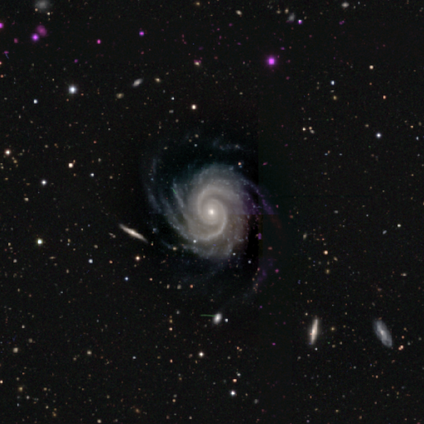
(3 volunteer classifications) Q: Smooth or featured?
A: featured or disk (67%); runner-up: star or artifact (33%)
Q: Edge-on disk?
A: no (100%)
Q: Bar?
A: no (100%)
Q: Spiral arms?
A: yes (100%)
Q: Spiral winding?
A: tight (50%); tied with: medium (50%)
Q: Spiral arm count?
A: 2 (50%); tied with: 4 (50%)
Q: Bulge size?
A: moderate (50%); tied with: small (50%)
Q: Merging?
A: none (50%); tied with: merger (50%)